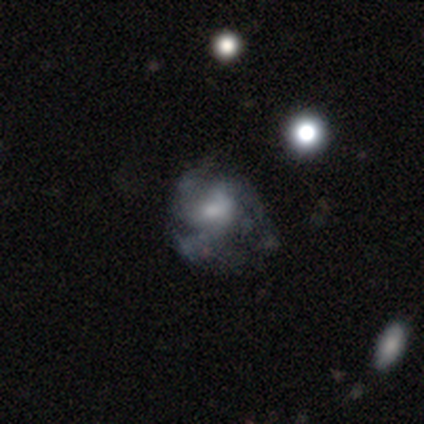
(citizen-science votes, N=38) Smooth or featured? 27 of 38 (71%) said featured or disk. Edge-on disk? 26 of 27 (96%) said no. Bar? 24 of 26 (92%) said no. Spiral arms? 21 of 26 (81%) said yes. Spiral winding? 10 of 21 (48%) said medium. Spiral arm count? 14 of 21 (67%) said 3. Bulge size? 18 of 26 (69%) said small. Merging? 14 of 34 (41%) said none.